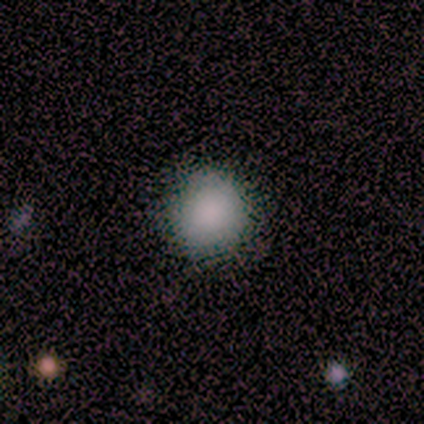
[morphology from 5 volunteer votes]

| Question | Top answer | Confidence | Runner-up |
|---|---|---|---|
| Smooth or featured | smooth | 100% | — |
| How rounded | round | 80% | in between (20%) |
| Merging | none | 100% | — |